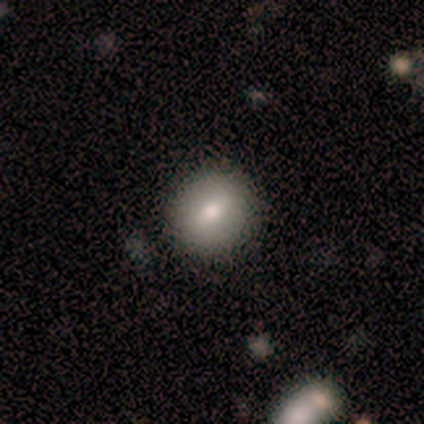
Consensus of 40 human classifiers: This appears to be a smooth galaxy with no disk features (75%) that is round (87%). Merging: none (87%).